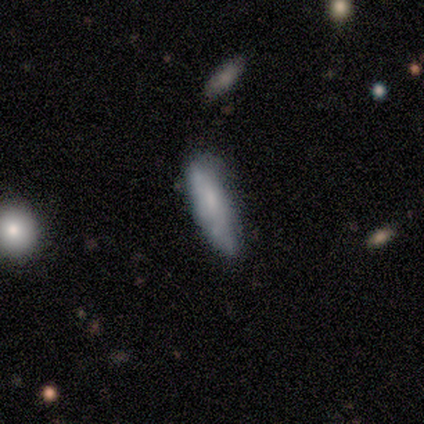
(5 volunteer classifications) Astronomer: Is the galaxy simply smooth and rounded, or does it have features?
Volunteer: smooth — 100%.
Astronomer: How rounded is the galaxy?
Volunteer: cigar-shaped — 80%.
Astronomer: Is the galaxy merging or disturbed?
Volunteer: none — 60% (runner-up: minor disturbance, 40%).